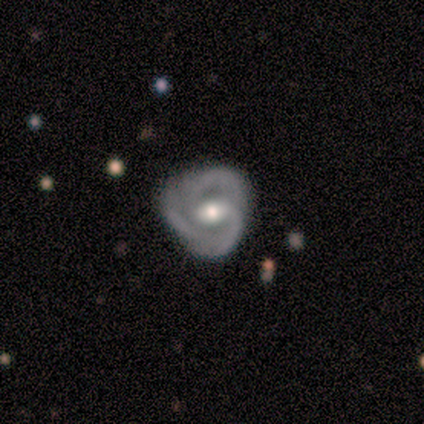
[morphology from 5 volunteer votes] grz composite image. It shows a featured or disk galaxy (100%) with no bar (60%), 3 (100%) tight (80%) spiral arms (100%) and a moderate central bulge (100%). Merging: none (100%).